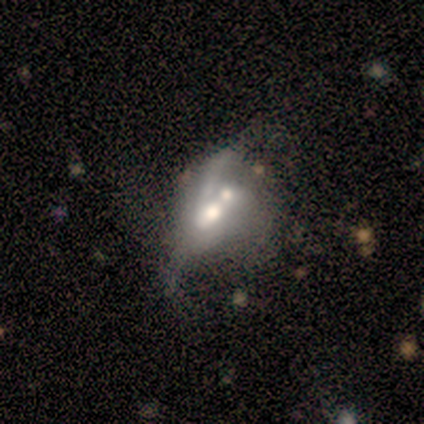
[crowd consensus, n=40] smooth-or-featured: featured or disk: 72% | smooth: 20% | star or artifact: 8%
  disk-edge-on: no: 97% | yes: 3%
    bar: no: 79% | weak: 21% | strong: 0%
    has-spiral-arms: no: 61% | yes: 39%
    bulge-size: moderate: 61% | large: 29% | small: 7% | none: 4% | dominant: 0%
  merging: merger: 76% | major disturbance: 16% | none: 5% | minor disturbance: 3%